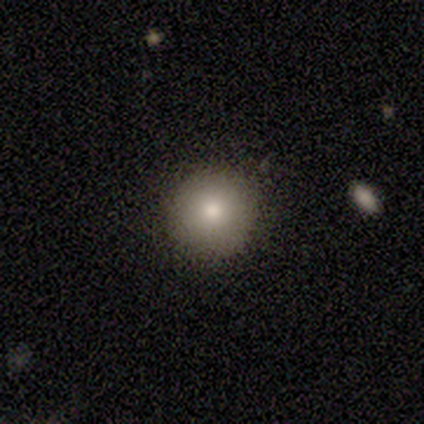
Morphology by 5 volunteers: Overall: smooth (80%). How rounded: round (100%). Merging: none (100%).